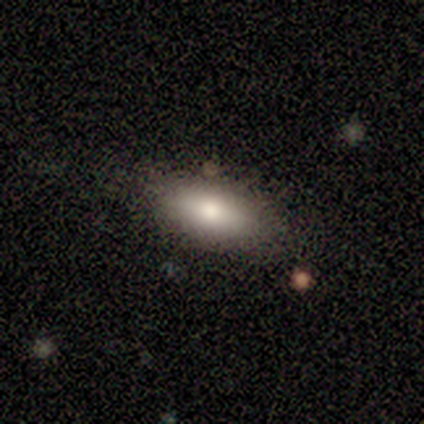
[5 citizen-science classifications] smooth-or-featured: smooth: 80% | featured or disk: 20% | star or artifact: 0%
  how-rounded: in between: 75% | cigar-shaped: 25% | round: 0%
  merging: none: 80% | minor disturbance: 20% | major disturbance: 0% | merger: 0%